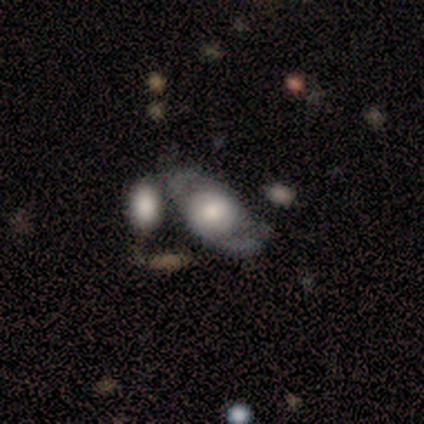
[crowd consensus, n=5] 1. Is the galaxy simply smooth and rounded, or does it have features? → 100% featured or disk, 0% smooth, 0% star or artifact.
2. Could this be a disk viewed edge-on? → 80% no, 20% yes.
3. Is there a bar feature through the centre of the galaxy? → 50% weak (tied), 50% no (tied), 0% strong.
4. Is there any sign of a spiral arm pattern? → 75% yes, 25% no.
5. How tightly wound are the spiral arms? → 67% medium, 33% tight, 0% loose.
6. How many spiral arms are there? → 67% 2, 33% 3, 0% 1, 0% 4, 0% more than 4, 0% can't tell.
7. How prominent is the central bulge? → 75% large, 25% dominant, 0% moderate, 0% small, 0% none.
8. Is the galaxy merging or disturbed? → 40% merger, 20% none, 20% minor disturbance, 20% major disturbance.